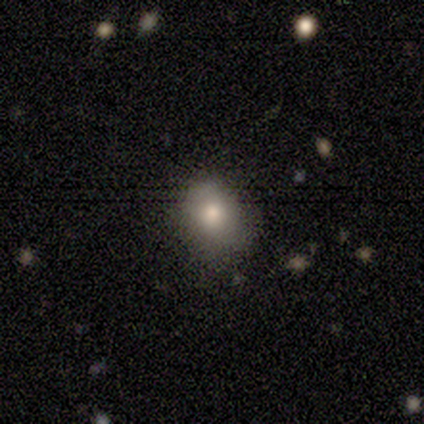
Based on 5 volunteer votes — Overall: smooth (100%). How rounded: in between (60%; round 40%). Merging: none (100%).